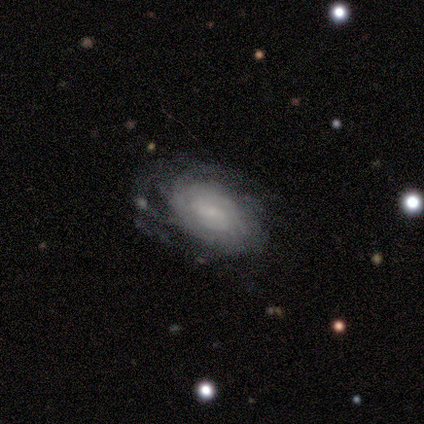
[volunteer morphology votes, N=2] A featured or disk galaxy (100%) with no bar (100%), tight (100%) spiral arms (100%) and a small central bulge (50%, tied with none). Merging: none (50%, tied with minor disturbance).